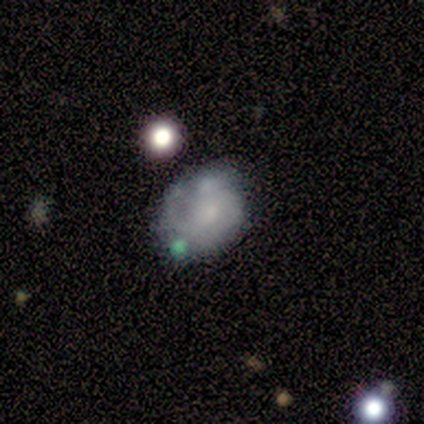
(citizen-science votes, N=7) Q: Smooth or featured?
A: featured or disk (57%); runner-up: smooth (43%)
Q: Edge-on disk?
A: no (100%)
Q: Bar?
A: no (75%); runner-up: weak (25%)
Q: Spiral arms?
A: yes (100%)
Q: Spiral winding?
A: medium (75%); runner-up: loose (25%)
Q: Spiral arm count?
A: 1 (50%); tied with: 2 (50%)
Q: Bulge size?
A: small (50%); runner-up: moderate (25%)
Q: Merging?
A: none (43%); runner-up: minor disturbance (29%)